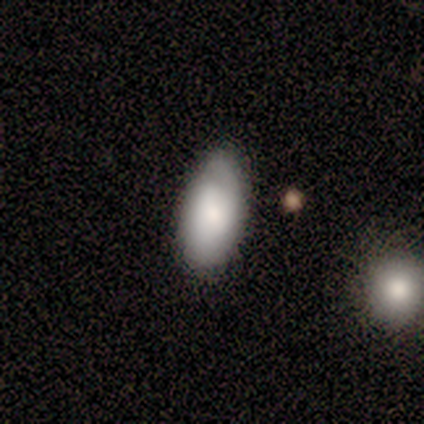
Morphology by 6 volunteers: Q: Smooth or featured?
A: featured or disk (67%); runner-up: smooth (33%)
Q: Edge-on disk?
A: no (100%)
Q: Bar?
A: no (75%); runner-up: strong (25%)
Q: Spiral arms?
A: yes (75%); runner-up: no (25%)
Q: Spiral winding?
A: loose (67%); runner-up: medium (33%)
Q: Spiral arm count?
A: 1 (33%); tied with: 2 (33%); can't tell (33%)
Q: Bulge size?
A: small (50%); runner-up: dominant (25%)
Q: Merging?
A: none (83%); runner-up: minor disturbance (17%)